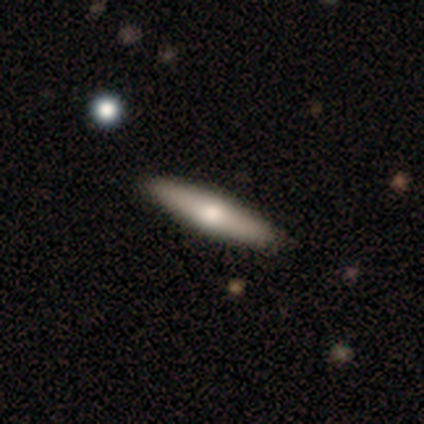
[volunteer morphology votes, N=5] Smooth or featured: featured or disk — 60% (smooth — 20%)
Edge-on disk: no — 67% (yes — 33%)
Bar: weak — 50% (tied with no — 50%)
Spiral arms: no — 100%
Bulge size: moderate — 50% (tied with small — 50%)
Merging: none — 100%